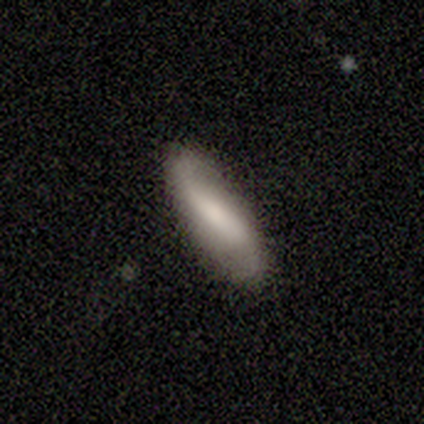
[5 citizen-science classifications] Smooth or featured? 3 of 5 (60%) said featured or disk. Edge-on disk? 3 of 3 (100%) said no. Bar? 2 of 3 (67%) said weak. Spiral arms? 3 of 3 (100%) said yes. Spiral winding? 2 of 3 (67%) said loose. Spiral arm count? 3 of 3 (100%) said 2. Bulge size? 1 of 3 (33%, tied with small and none) said moderate. Merging? 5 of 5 (100%) said none.